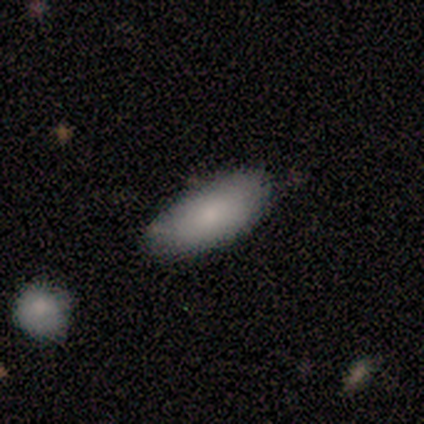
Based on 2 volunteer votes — smooth-or-featured: smooth: 100% | featured or disk: 0% | star or artifact: 0%
  how-rounded: in between: 50% (tied) | cigar-shaped: 50% (tied) | round: 0%
  merging: none: 100% | minor disturbance: 0% | major disturbance: 0% | merger: 0%